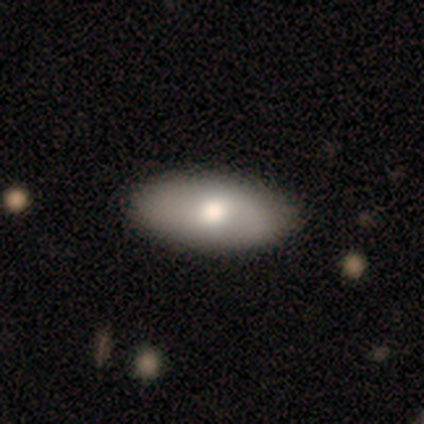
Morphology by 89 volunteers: Smooth or featured? 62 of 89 (70%) said smooth. How rounded? 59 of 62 (95%) said in between. Merging? 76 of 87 (87%) said none.